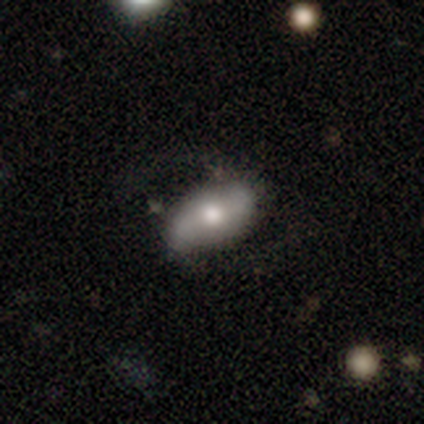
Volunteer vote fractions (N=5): Volunteers were most divided on "smooth or featured": smooth: 60%, featured or disk: 40%, star or artifact: 0%. More confident: merging — none (80%); how rounded — in between (67%).